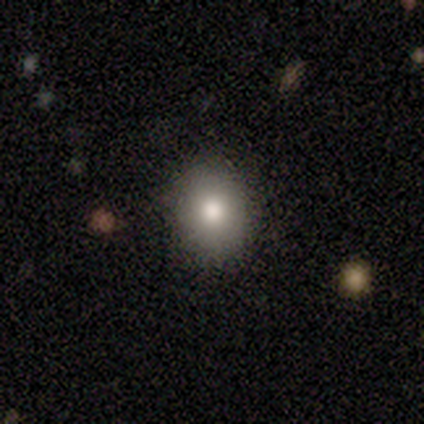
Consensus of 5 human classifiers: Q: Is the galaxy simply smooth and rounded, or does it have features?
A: smooth — 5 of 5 (100%).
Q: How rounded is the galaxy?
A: in between — 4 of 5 (80%).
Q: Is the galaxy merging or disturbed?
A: none — 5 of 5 (100%).